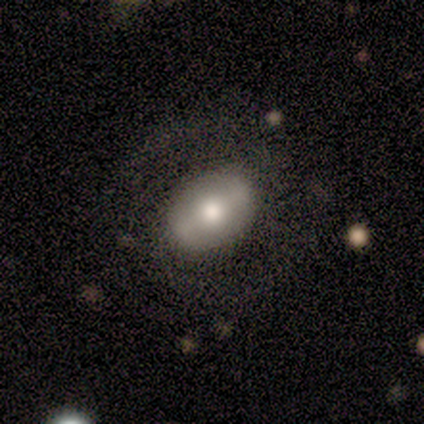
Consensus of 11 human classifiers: featured or disk 55%, smooth 45%, star or artifact 0%. Down the decision tree: edge-on disk — no (100%); bar — weak (50%, tied with no); spiral arms — no (67%); bulge size — large (67%); merging — none (64%).